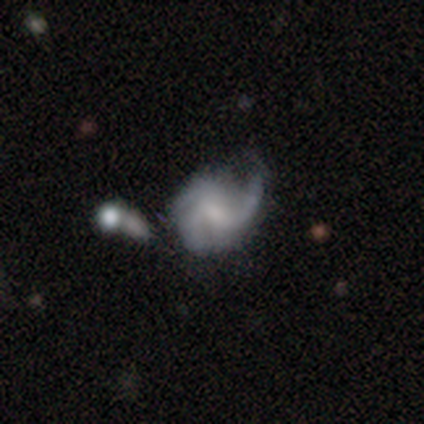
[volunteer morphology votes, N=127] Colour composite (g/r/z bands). It shows a featured or disk galaxy (83%) with a weak bar (55%), 3 (52%) medium (51%) spiral arms (90%) and a small central bulge (34%). Merging: major disturbance (30%).